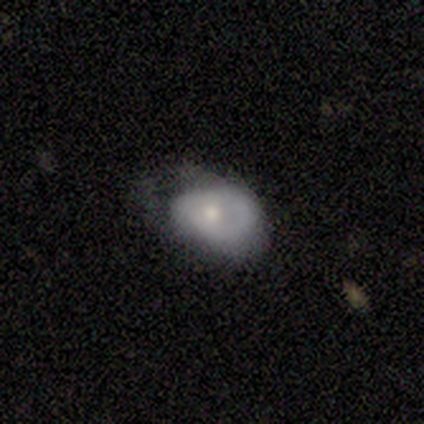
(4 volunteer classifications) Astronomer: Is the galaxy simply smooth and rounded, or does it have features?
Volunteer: featured or disk — 75%.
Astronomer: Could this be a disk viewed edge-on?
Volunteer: no — 100%.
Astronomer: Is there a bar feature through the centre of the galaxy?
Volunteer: no — 100%.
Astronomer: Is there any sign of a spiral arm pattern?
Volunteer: no — 67%.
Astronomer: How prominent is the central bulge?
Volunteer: moderate — 67%.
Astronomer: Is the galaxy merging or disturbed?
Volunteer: none — 75%.